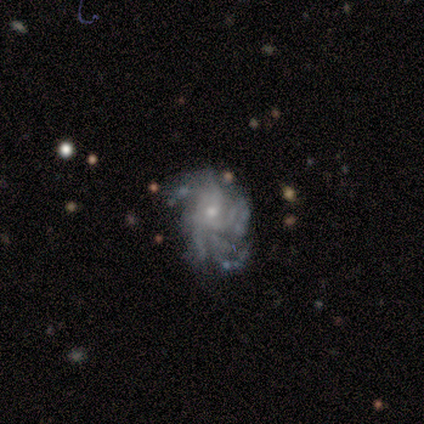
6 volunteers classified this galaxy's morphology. featured or disk 100%, smooth 0%, star or artifact 0%. Down the decision tree: edge-on disk — no (100%); bar — no (100%); spiral arms — yes (100%); spiral arm count — 4 (50%); spiral winding — tight (67%); bulge size — moderate (50%, tied with small); merging — none (50%).